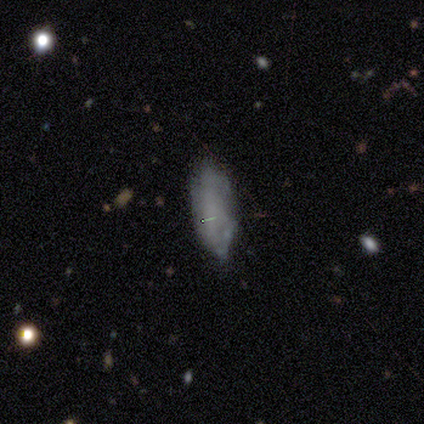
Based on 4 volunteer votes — A smooth galaxy with no disk features (75%) that is in between round and cigar-shaped (100%). Merging: none (100%).